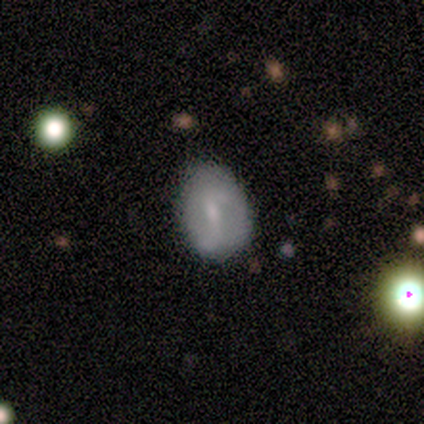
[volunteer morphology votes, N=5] smooth 40% (tied), featured or disk 40% (tied), star or artifact 20%. Down the decision tree: how rounded — in between (100%); merging — none (75%).